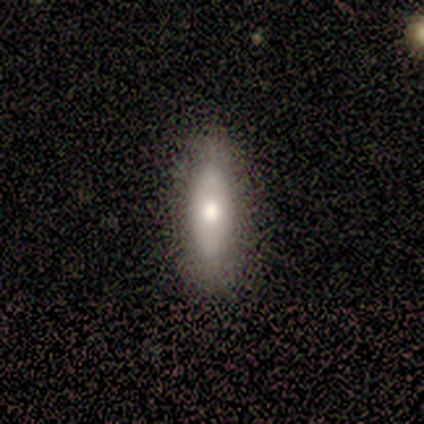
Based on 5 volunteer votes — Smooth or featured: smooth — 80% (star or artifact — 20%)
How rounded: in between — 50% (tied with cigar-shaped — 50%)
Merging: none — 75% (major disturbance — 25%)